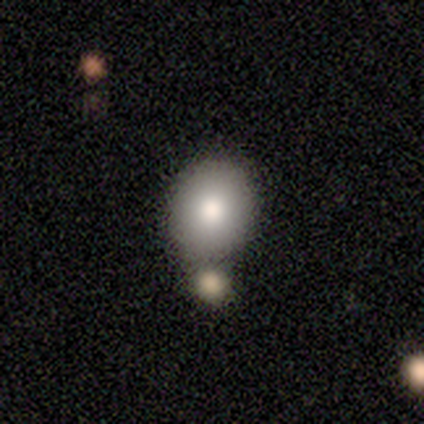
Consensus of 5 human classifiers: Volunteers were most divided on "merging": none: 60%, minor disturbance: 20%, merger: 20%, major disturbance: 0%. More confident: smooth or featured — smooth (100%); how rounded — round (100%).